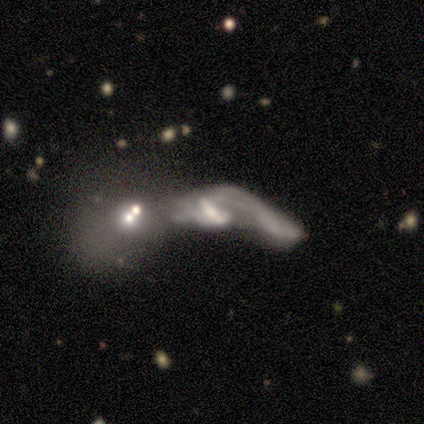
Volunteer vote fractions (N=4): Smooth or featured?
  - smooth: 50% *
  - featured or disk: 25%
  - star or artifact: 25%
How rounded?
  - in between: 50% * (tied)
  - cigar-shaped: 50% * (tied)
  - round: 0%
Merging?
  - merger: 67% *
  - major disturbance: 33%
  - none: 0%
  - minor disturbance: 0%